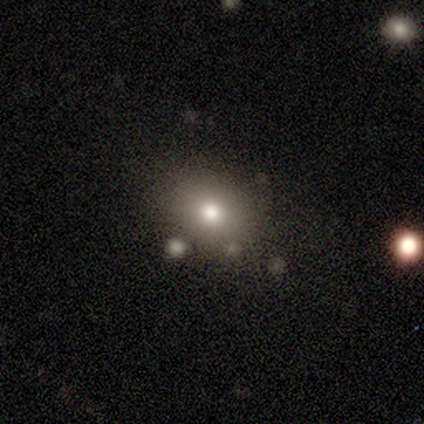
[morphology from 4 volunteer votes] smooth 100%, featured or disk 0%, star or artifact 0%. Down the decision tree: how rounded — round (75%); merging — none (50%, tied with merger).